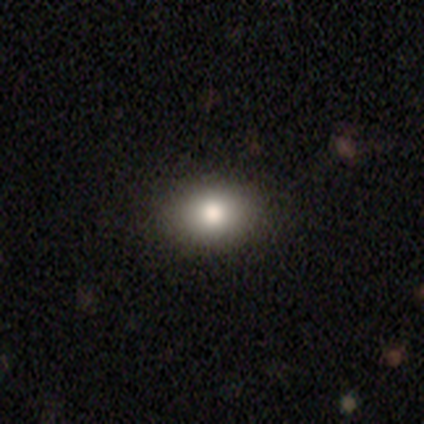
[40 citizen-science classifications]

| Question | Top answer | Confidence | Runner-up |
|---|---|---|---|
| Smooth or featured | smooth | 80% | featured or disk (10%) |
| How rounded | in between | 62% | round (38%) |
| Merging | none | 92% | minor disturbance (8%) |